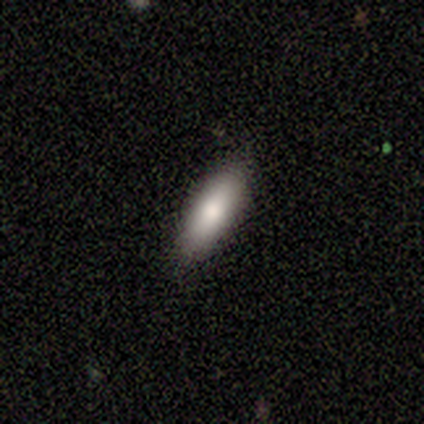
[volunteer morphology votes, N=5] Smooth or featured: smooth — 80% (featured or disk — 20%)
How rounded: in between — 50% (tied with cigar-shaped — 50%)
Merging: none — 100%